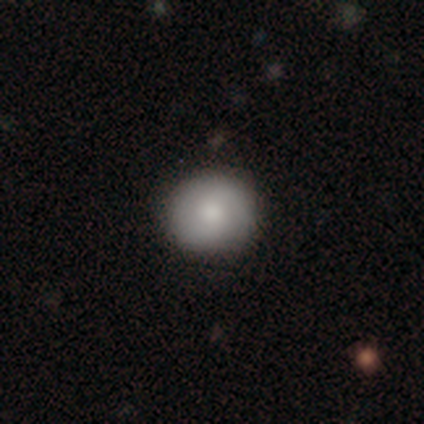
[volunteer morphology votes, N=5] smooth-or-featured: smooth: 60% | featured or disk: 40% | star or artifact: 0%
  how-rounded: round: 100% | in between: 0% | cigar-shaped: 0%
  merging: none: 100% | minor disturbance: 0% | major disturbance: 0% | merger: 0%